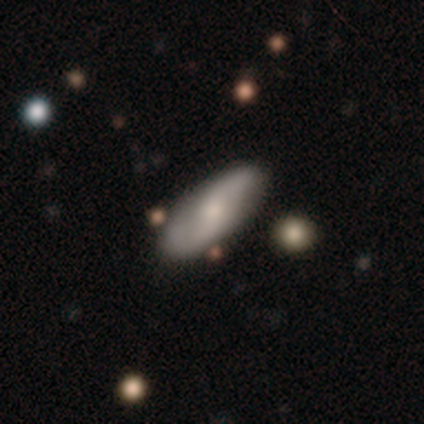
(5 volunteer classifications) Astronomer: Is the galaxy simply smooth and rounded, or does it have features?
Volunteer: featured or disk — 60% (runner-up: smooth, 40%).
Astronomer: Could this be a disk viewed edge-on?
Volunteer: no — 100%.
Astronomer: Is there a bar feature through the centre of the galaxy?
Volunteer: no — 67%.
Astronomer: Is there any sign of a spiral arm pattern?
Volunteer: yes — 100%.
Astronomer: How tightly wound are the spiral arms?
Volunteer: medium — 67%.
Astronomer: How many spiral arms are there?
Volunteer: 2 — 100%.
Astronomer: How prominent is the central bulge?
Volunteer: small — 100%.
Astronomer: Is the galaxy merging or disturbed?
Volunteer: none — 60% (runner-up: minor disturbance, 40%).